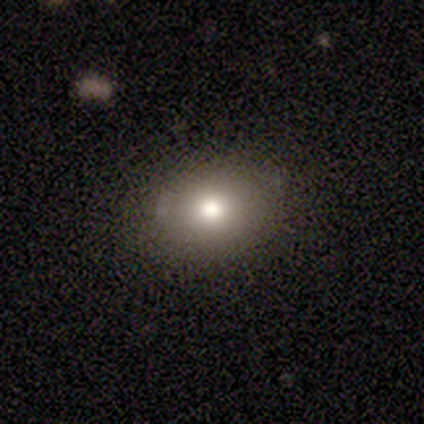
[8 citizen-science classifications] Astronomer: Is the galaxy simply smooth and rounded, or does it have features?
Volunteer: smooth — 88%.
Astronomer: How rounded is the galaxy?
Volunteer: in between — 86%.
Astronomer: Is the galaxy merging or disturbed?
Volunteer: none — 57% (runner-up: minor disturbance, 43%).